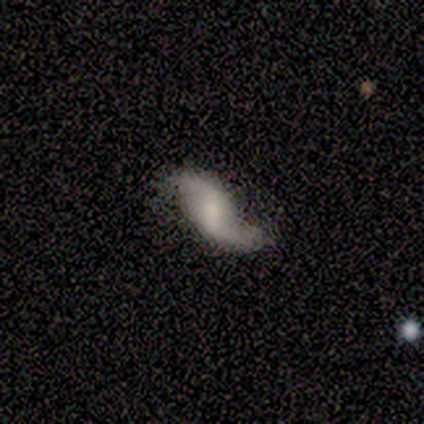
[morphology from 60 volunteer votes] Smooth or featured? featured or disk (85%)
Edge-on disk? no (92%)
Bar? weak (49%)
Spiral arms? yes (96%)
Spiral winding? loose (80%)
Spiral arm count? 2 (98%)
Bulge size? small (43%)
Merging? none (71%)